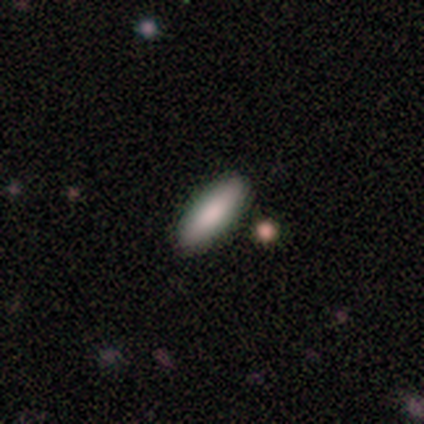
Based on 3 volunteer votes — featured or disk 67%, smooth 33%, star or artifact 0%. Down the decision tree: edge-on disk — yes (50%, tied with no); edge-on bulge — none (100%); merging — none (67%).